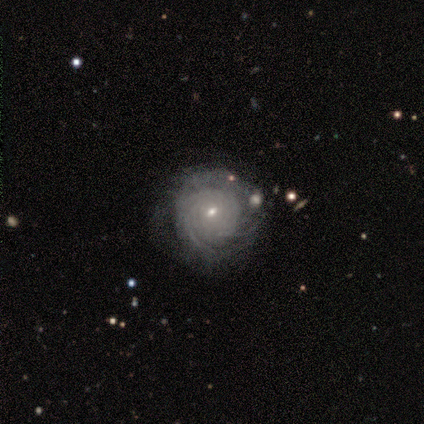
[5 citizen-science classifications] A featured or disk galaxy (80%) with a weak bar (50%, tied with no), tight (100%) spiral arms (100%) and a small central bulge (75%). Merging: none (40%, tied with minor disturbance).